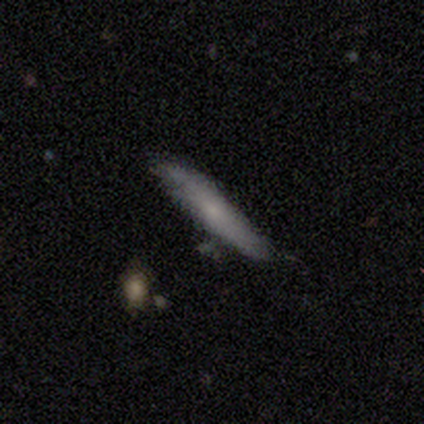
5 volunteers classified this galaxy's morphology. Smooth or featured? 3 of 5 (60%) said smooth. How rounded? 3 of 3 (100%) said cigar-shaped. Merging? 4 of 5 (80%) said none.